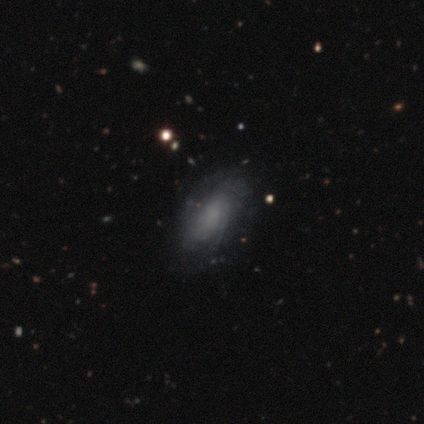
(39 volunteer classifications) Volunteers were most divided on "spiral arms": yes: 57%, no: 43%. Remaining: edge-on disk — no (100%); bulge size — none (82%); bar — no (75%); smooth or featured — featured or disk (72%); spiral winding — tight (62%); spiral arm count — can't tell (44%); merging — none (39%).